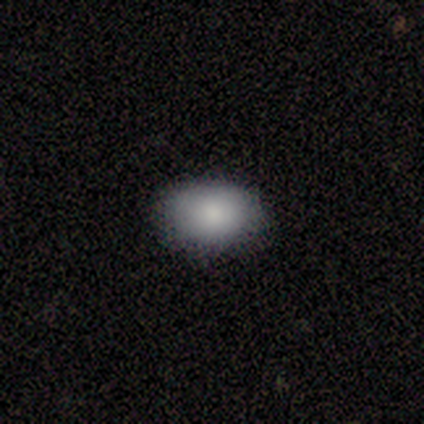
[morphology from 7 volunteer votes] Volunteers were most divided on "how rounded": in between: 83%, round: 17%, cigar-shaped: 0%. More confident: merging — none (100%); smooth or featured — smooth (86%).